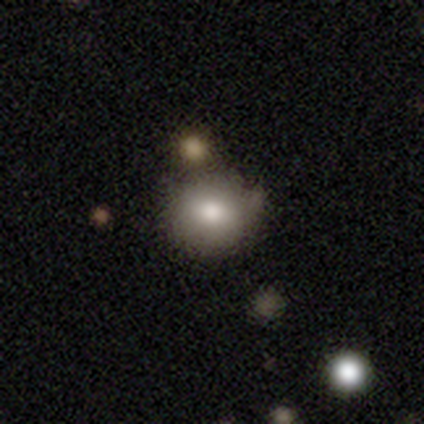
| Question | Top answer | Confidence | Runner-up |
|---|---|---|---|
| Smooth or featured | smooth | 72% | featured or disk (15%) |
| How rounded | round | 79% | in between (21%) |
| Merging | none | 66% | minor disturbance (17%) |